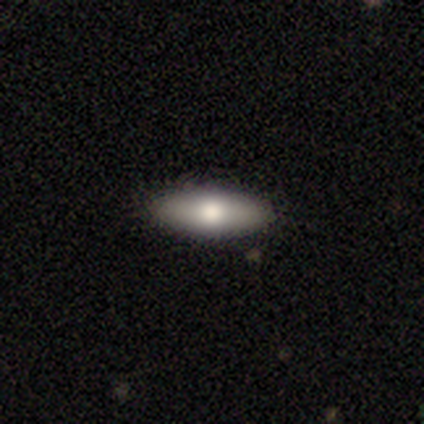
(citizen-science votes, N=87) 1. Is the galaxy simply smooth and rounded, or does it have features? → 67% smooth, 26% featured or disk, 7% star or artifact.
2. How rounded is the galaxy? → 57% in between, 41% cigar-shaped, 2% round.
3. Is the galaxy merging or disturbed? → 90% none, 9% minor disturbance, 1% merger, 0% major disturbance.